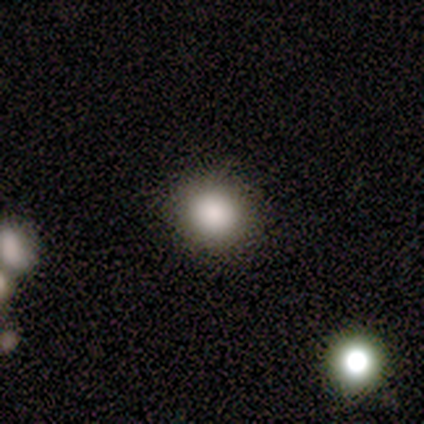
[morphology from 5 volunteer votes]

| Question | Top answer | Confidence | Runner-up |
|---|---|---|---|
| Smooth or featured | smooth | 100% | — |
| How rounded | round | 80% | in between (20%) |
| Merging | none | 100% | — |